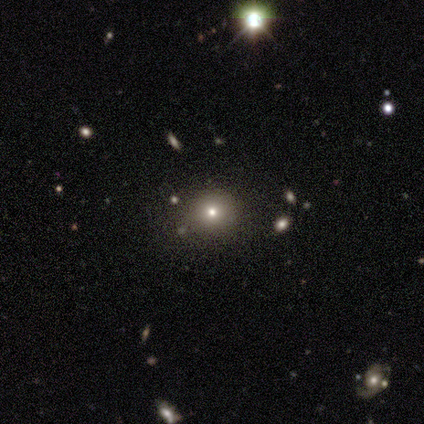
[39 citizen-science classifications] This appears to be a smooth galaxy with no disk features (64%) that is round (80%). Merging: none (82%).